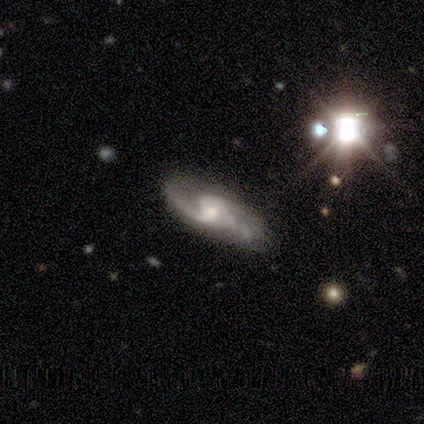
Smooth or featured? featured or disk (100%)
Edge-on disk? no (100%)
Bar? weak (80%)
Spiral arms? yes (80%)
Spiral winding? loose (50%)
Spiral arm count? 2 (75%)
Bulge size? moderate (80%)
Merging? none (100%)